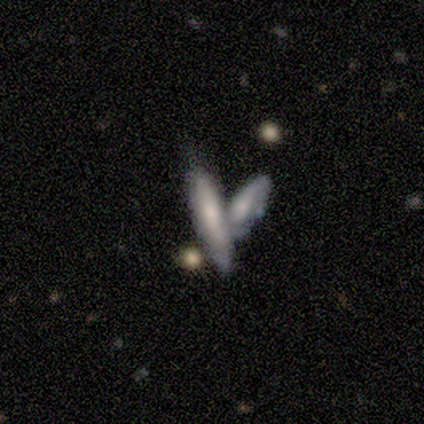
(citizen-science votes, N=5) This appears to be a smooth galaxy with no disk features (60%) that is cigar-shaped (100%). Merging: merger (80%).